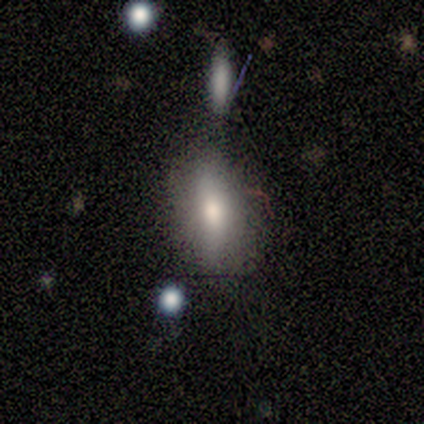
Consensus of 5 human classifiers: Morphology: type=smooth (80%); roundness=in between (75%); merging=none (100%).